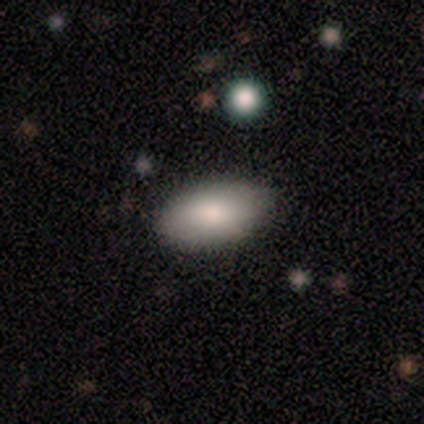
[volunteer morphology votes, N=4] smooth 50% (tied), featured or disk 50% (tied), star or artifact 0%. Down the decision tree: how rounded — in between (100%); merging — none (100%).